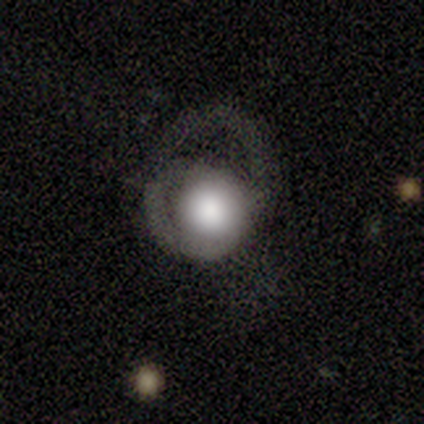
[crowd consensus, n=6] featured or disk 50%, smooth 33%, star or artifact 17%. Down the decision tree: edge-on disk — no (100%); bar — no (67%); spiral arms — yes (100%); spiral arm count — 2 (67%); spiral winding — loose (67%); bulge size — large (100%); merging — minor disturbance (40%, tied with major disturbance).